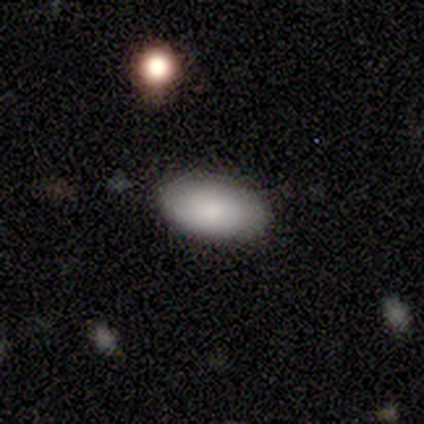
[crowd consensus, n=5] Morphology: type=smooth (100%); roundness=in between (100%); merging=none (80%).